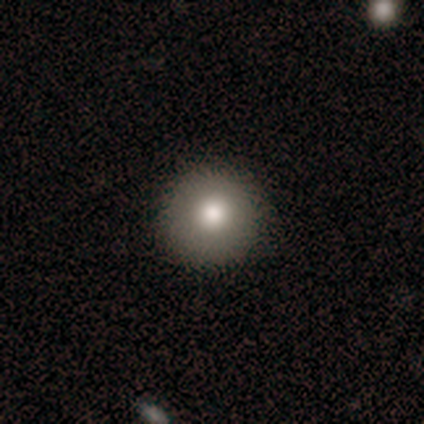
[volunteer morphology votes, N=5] Smooth or featured: smooth — 80% (star or artifact — 20%)
How rounded: round — 100%
Merging: none — 75% (minor disturbance — 25%)